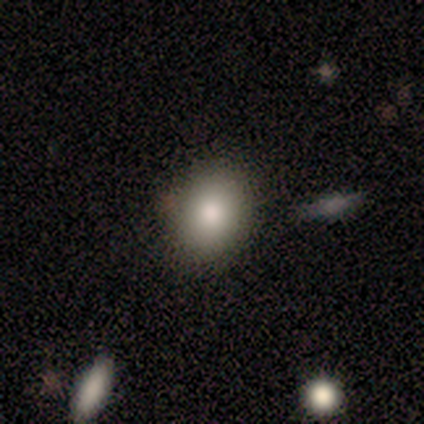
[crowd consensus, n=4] This appears to be a smooth galaxy with no disk features (100%) that is round (75%). Merging: none (100%).